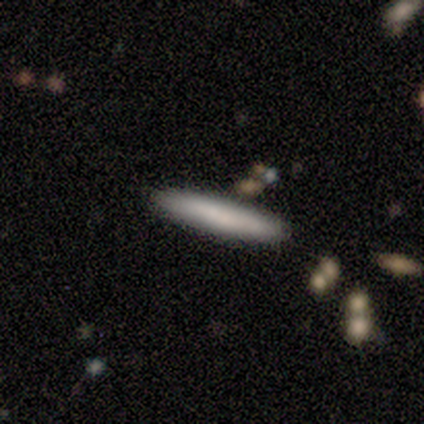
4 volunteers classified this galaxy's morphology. Smooth or featured? smooth (50%, tied with featured or disk)
How rounded? cigar-shaped (100%)
Merging? none (75%)